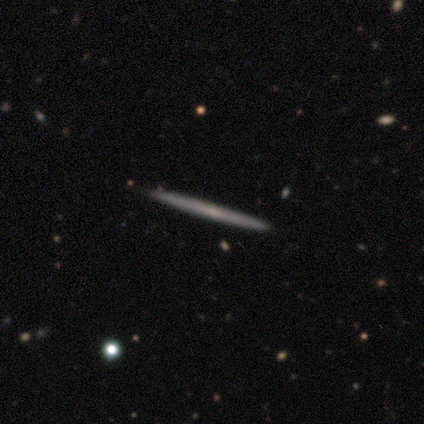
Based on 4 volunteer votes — smooth-or-featured: smooth: 75% | featured or disk: 25% | star or artifact: 0%
  how-rounded: cigar-shaped: 100% | round: 0% | in between: 0%
  merging: none: 100% | minor disturbance: 0% | major disturbance: 0% | merger: 0%